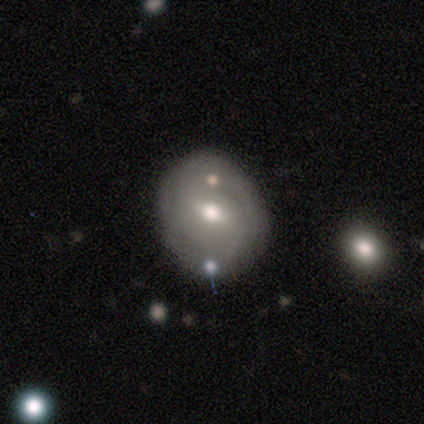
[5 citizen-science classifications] smooth-or-featured: featured or disk: 60% | smooth: 20% | star or artifact: 20%
  disk-edge-on: no: 100% | yes: 0%
    bar: weak: 67% | strong: 33% | no: 0%
    has-spiral-arms: no: 67% | yes: 33%
    bulge-size: moderate: 100% | dominant: 0% | large: 0% | small: 0% | none: 0%
  merging: none: 75% | merger: 25% | minor disturbance: 0% | major disturbance: 0%